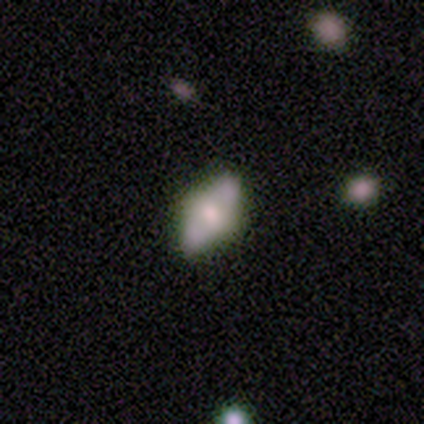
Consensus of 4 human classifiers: This appears to be a smooth galaxy with no disk features (50%, tied with featured or disk) that is round (50%, tied with in between). Merging: none (50%).